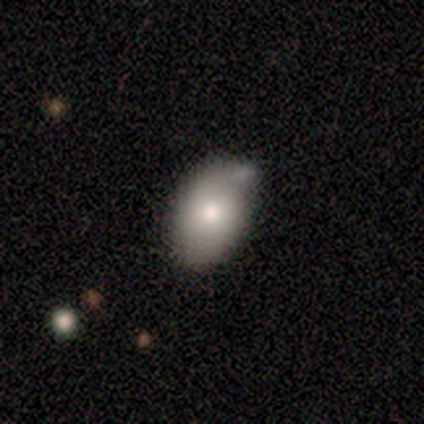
Q: Smooth or featured?
A: smooth (100%)
Q: How rounded?
A: in between (100%)
Q: Merging?
A: none (80%); runner-up: merger (20%)